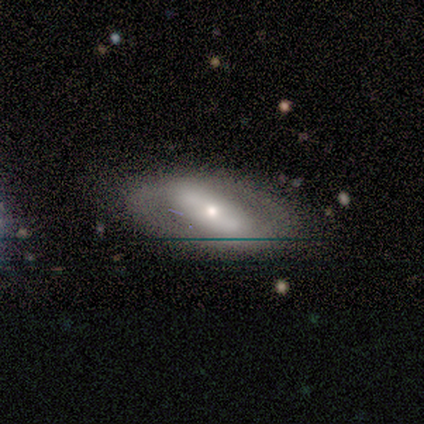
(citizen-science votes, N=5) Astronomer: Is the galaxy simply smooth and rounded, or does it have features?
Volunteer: featured or disk — 60% (runner-up: smooth, 40%).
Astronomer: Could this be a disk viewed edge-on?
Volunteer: no — 100%.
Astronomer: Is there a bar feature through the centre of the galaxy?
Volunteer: strong — 100%.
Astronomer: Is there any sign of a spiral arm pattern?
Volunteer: no — 67%.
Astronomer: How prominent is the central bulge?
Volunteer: large — 33%, tied with moderate and small at 33%.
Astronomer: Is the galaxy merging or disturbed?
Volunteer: none — 80%.